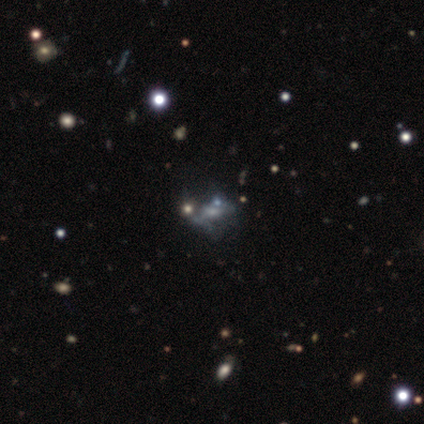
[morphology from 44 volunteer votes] Smooth or featured: featured or disk — 57% (star or artifact — 27%)
Edge-on disk: no — 100%
Bar: no — 88% (weak — 8%)
Spiral arms: no — 84% (yes — 16%)
Bulge size: small — 44% (moderate — 24%)
Merging: none — 34% (tied with major disturbance — 34%)